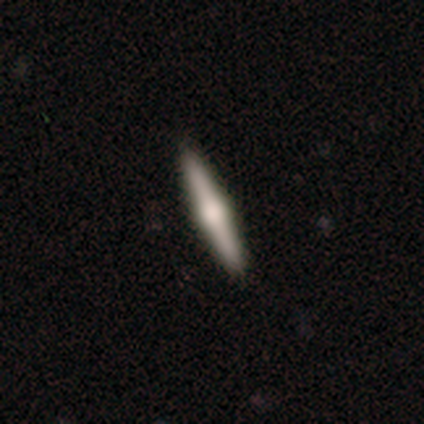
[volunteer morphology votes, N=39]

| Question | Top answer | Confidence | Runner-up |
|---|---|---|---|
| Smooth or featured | featured or disk | 69% | smooth (28%) |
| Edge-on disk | yes | 100% | — |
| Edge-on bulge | rounded | 100% | — |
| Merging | none | 100% | — |